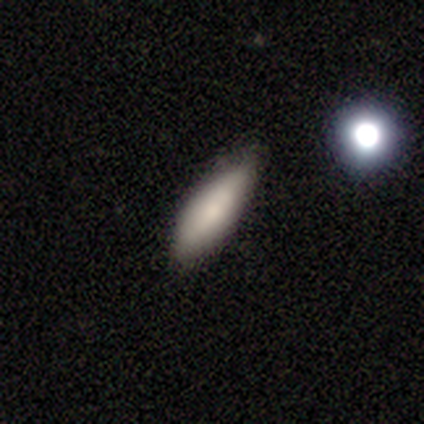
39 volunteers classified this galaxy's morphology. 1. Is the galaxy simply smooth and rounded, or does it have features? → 87% smooth, 8% star or artifact, 5% featured or disk.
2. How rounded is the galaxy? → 71% in between, 29% cigar-shaped, 0% round.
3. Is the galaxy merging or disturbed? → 67% none, 28% minor disturbance, 3% major disturbance, 3% merger.